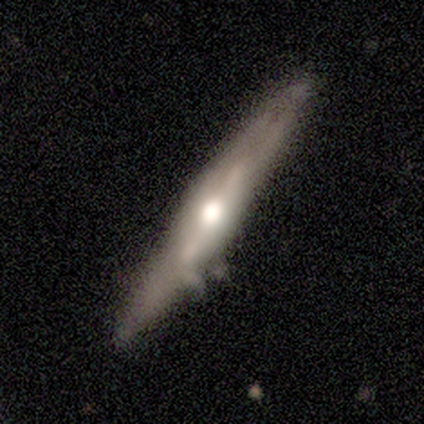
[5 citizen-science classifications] featured or disk 80%, smooth 20%, star or artifact 0%. Down the decision tree: edge-on disk — yes (100%); edge-on bulge — rounded (100%); merging — none (60%).